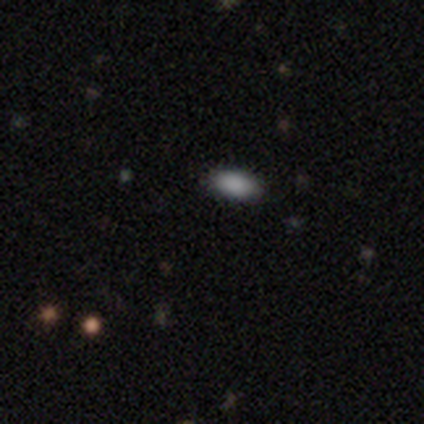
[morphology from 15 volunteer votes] smooth-or-featured: smooth: 87% | featured or disk: 7% | star or artifact: 7%
  how-rounded: in between: 100% | round: 0% | cigar-shaped: 0%
  merging: none: 100% | minor disturbance: 0% | major disturbance: 0% | merger: 0%